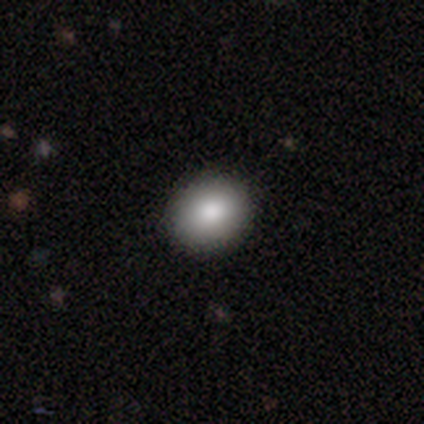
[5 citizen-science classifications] A smooth galaxy with no disk features (100%) that is round (100%).

Vote fractions:
- Smooth or featured? smooth: 100% / featured or disk: 0% / star or artifact: 0%
- How rounded? round: 100% / in between: 0% / cigar-shaped: 0%
- Merging? none: 100% / minor disturbance: 0% / major disturbance: 0% / merger: 0%